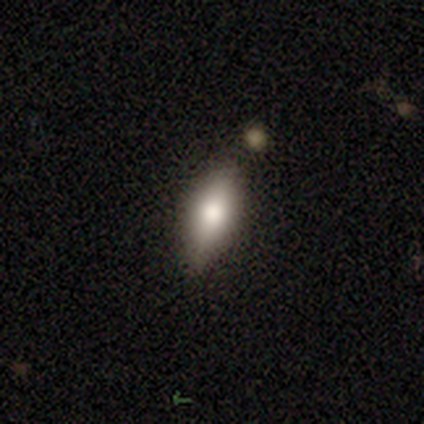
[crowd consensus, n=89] Volunteers were most divided on "how rounded": in between: 59%, cigar-shaped: 31%, round: 10%. More confident: merging — none (70%); smooth or featured — smooth (69%).